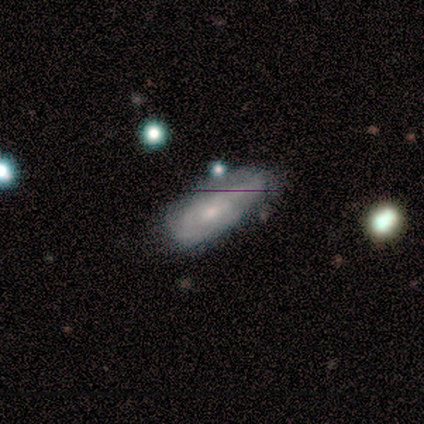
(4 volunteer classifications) A featured or disk galaxy (75%) with a weak bar (100%), tight (100%) spiral arms (50%, tied with no) and a moderate central bulge (50%, tied with small).

Vote fractions:
- Smooth or featured? featured or disk: 75% / smooth: 25% / star or artifact: 0%
- Edge-on disk? no: 67% / yes: 33%
- Bar? weak: 100% / strong: 0% / no: 0%
- Spiral arms? yes: 50% (tied) / no: 50% (tied)
- Spiral winding? tight: 100% / medium: 0% / loose: 0%
- Spiral arm count? can't tell: 100% / 1: 0% / 2: 0% / 3: 0% / 4: 0% / more than 4: 0%
- Bulge size? moderate: 50% (tied) / small: 50% (tied) / dominant: 0% / large: 0% / none: 0%
- Merging? none: 75% / minor disturbance: 25% / major disturbance: 0% / merger: 0%